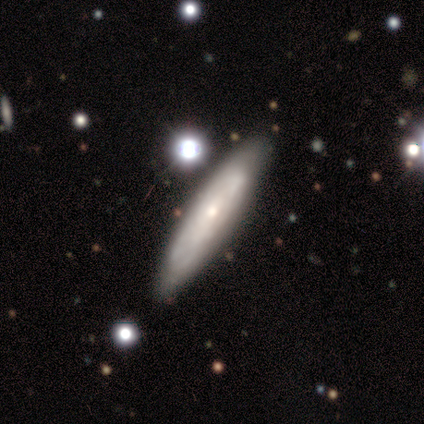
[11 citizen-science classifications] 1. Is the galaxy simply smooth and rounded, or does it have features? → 64% featured or disk, 36% smooth, 0% star or artifact.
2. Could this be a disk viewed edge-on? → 57% yes, 43% no.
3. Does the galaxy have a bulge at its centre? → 50% none (tied), 50% rounded (tied), 0% boxy.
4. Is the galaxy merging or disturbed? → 91% none, 9% major disturbance, 0% minor disturbance, 0% merger.